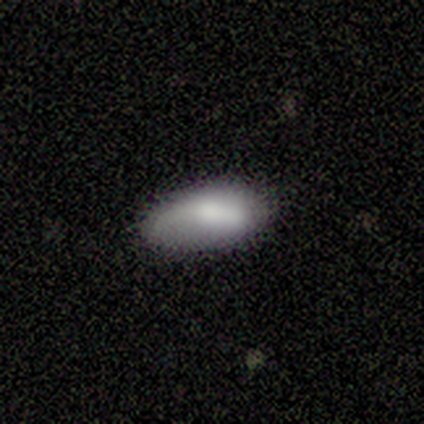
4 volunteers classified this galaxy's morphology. Overall: smooth (100%). How rounded: in between (75%). Merging: none (75%).